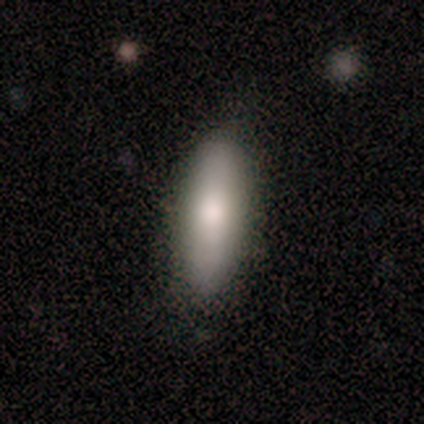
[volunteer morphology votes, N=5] A smooth galaxy with no disk features (60%) that is in between round and cigar-shaped (67%). Merging: none (50%).